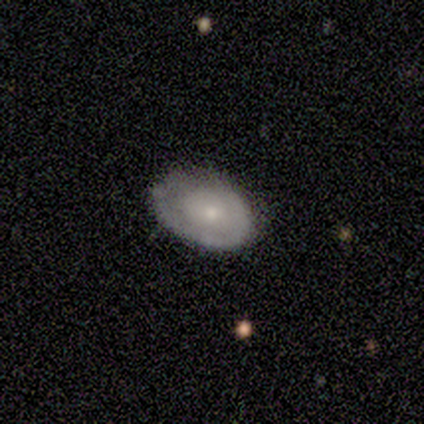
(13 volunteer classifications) A featured or disk galaxy (85%) with no bar (100%), no spiral arms (73%) and a small central bulge (82%). Merging: none (38%, tied with minor disturbance).